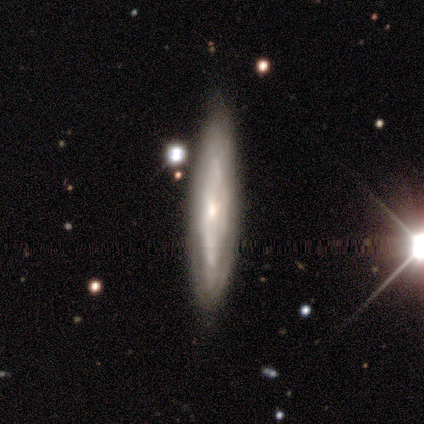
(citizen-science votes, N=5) A featured or disk galaxy (100%) viewed edge-on (60%) with a boxy central bulge (33%, tied with none and rounded).

Vote fractions:
- Smooth or featured? featured or disk: 100% / smooth: 0% / star or artifact: 0%
- Edge-on disk? yes: 60% / no: 40%
- Edge-on bulge? boxy: 33% (tied) / none: 33% (tied) / rounded: 33% (tied)
- Merging? none: 100% / minor disturbance: 0% / major disturbance: 0% / merger: 0%